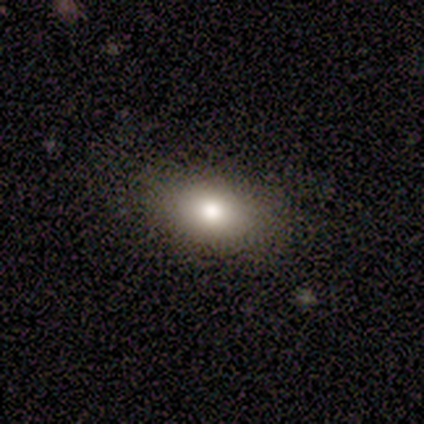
Morphology: type=smooth (82%); roundness=in between (64%); merging=none (89%).